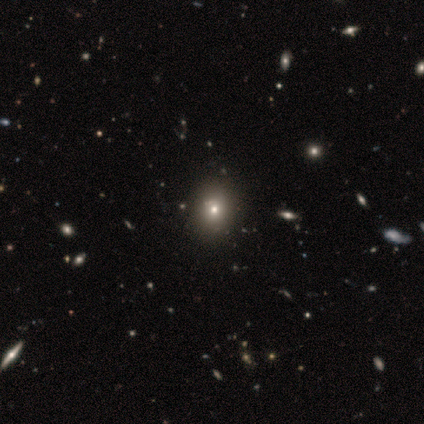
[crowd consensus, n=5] This appears to be a smooth galaxy with no disk features (80%) that is in between round and cigar-shaped (75%). Merging: none (100%).